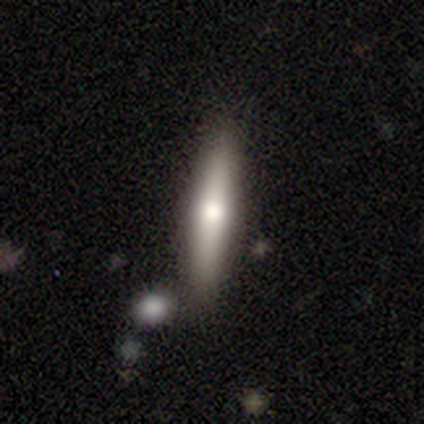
smooth-or-featured: smooth: 70% | featured or disk: 30% | star or artifact: 0%
  how-rounded: cigar-shaped: 100% | round: 0% | in between: 0%
  merging: none: 80% | minor disturbance: 10% | major disturbance: 10% | merger: 0%